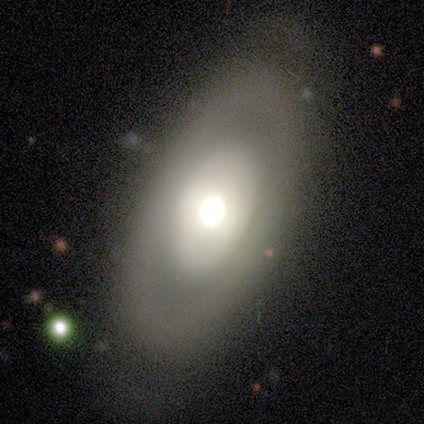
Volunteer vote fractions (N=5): Smooth or featured?
  - smooth: 80% *
  - featured or disk: 20%
  - star or artifact: 0%
How rounded?
  - in between: 100% *
  - round: 0%
  - cigar-shaped: 0%
Merging?
  - none: 80% *
  - minor disturbance: 20%
  - major disturbance: 0%
  - merger: 0%